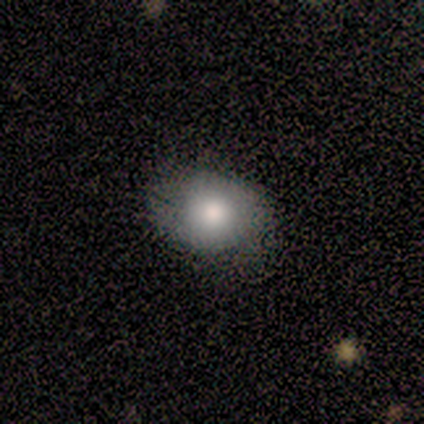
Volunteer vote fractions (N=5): Volunteers were most divided on "merging": none: 60%, minor disturbance: 20%, major disturbance: 20%, merger: 0%. More confident: smooth or featured — smooth (80%); how rounded — round (75%).